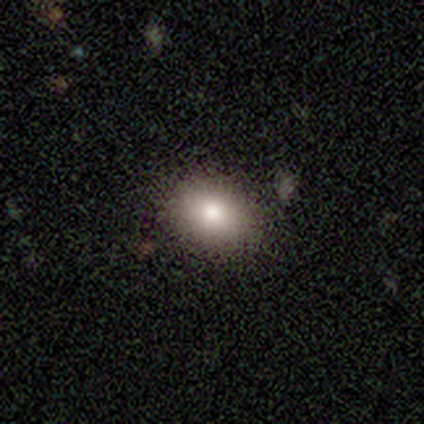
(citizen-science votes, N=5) Smooth or featured? 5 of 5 (100%) said smooth. How rounded? 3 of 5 (60%) said in between. Merging? 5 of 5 (100%) said none.